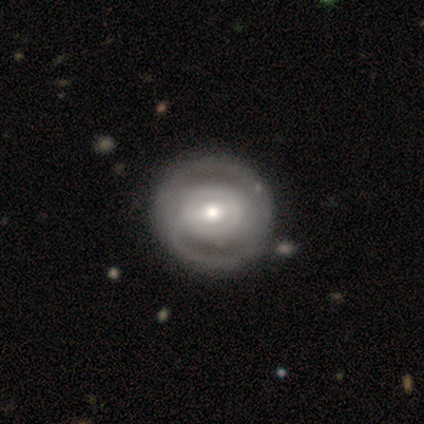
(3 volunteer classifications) Morphology: type=featured or disk (67%); edge-on=no (100%); bar=strong (50%, tied with weak); spiral arms=yes (100%); winding=tight (100%); arm count=2 (100%); bulge=moderate (100%); merging=none (100%).